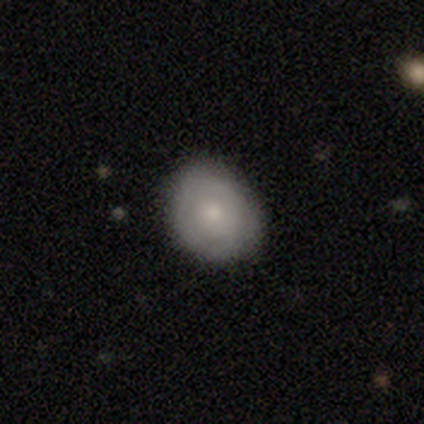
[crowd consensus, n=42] Morphology: type=smooth (57%); roundness=round (54%); merging=none (82%).